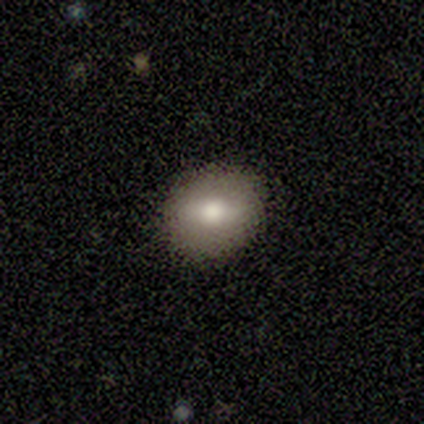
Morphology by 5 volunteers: smooth-or-featured: featured or disk: 60% | smooth: 40% | star or artifact: 0%
  disk-edge-on: no: 100% | yes: 0%
    bar: strong: 33% (tied) | weak: 33% (tied) | no: 33% (tied)
    has-spiral-arms: no: 100% | yes: 0%
    bulge-size: moderate: 100% | dominant: 0% | large: 0% | small: 0% | none: 0%
  merging: none: 100% | minor disturbance: 0% | major disturbance: 0% | merger: 0%